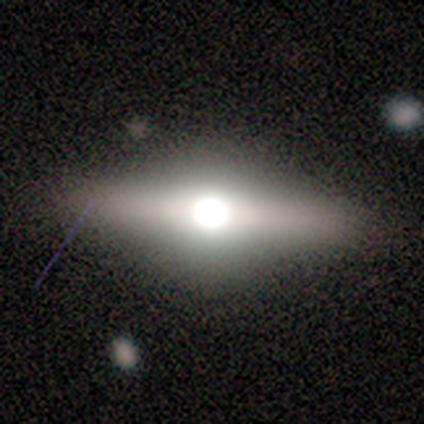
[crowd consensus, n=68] Smooth or featured: featured or disk — 63% (smooth — 31%)
Edge-on disk: yes — 91% (no — 9%)
Edge-on bulge: rounded — 97% (boxy — 3%)
Merging: none — 88% (minor disturbance — 6%)